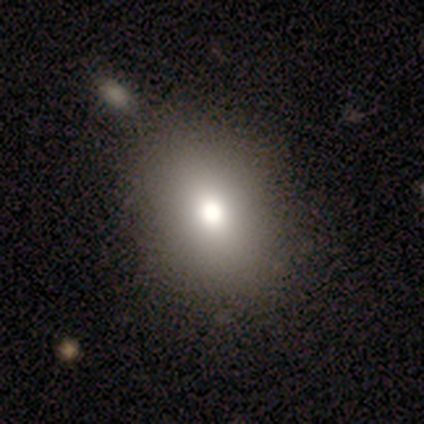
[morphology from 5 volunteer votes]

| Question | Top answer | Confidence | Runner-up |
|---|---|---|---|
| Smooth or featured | smooth | 100% | — |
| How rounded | in between | 60% | round (40%) |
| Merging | none | 100% | — |